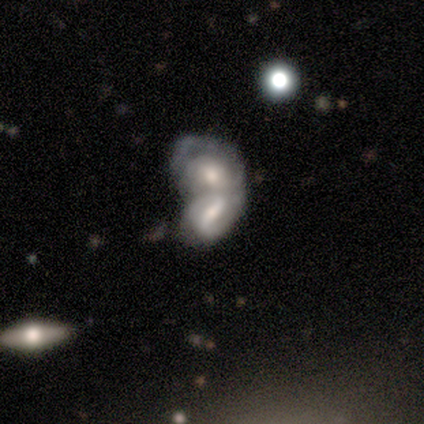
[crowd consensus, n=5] Smooth or featured? featured or disk (80%)
Edge-on disk? no (100%)
Bar? strong (50%, tied with weak)
Spiral arms? yes (100%)
Spiral winding? tight (50%, tied with loose)
Spiral arm count? 2 (75%)
Bulge size? moderate (75%)
Merging? merger (100%)